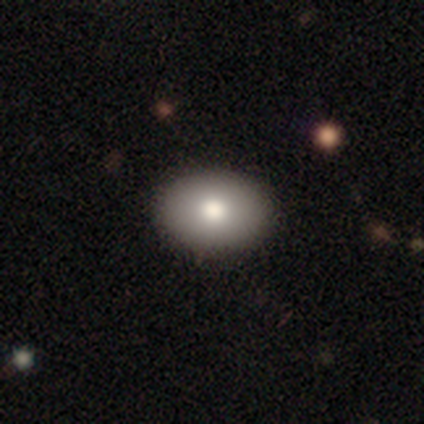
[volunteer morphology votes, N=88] Q: Smooth or featured?
A: smooth (74%); runner-up: featured or disk (16%)
Q: How rounded?
A: in between (74%); runner-up: round (26%)
Q: Merging?
A: none (89%); runner-up: minor disturbance (9%)